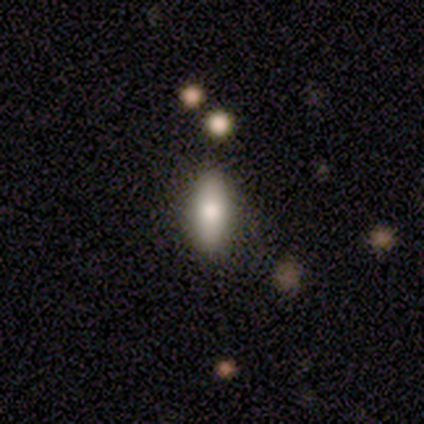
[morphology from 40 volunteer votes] Smooth or featured?
  - smooth: 80% *
  - star or artifact: 15%
  - featured or disk: 5%
How rounded?
  - in between: 75% *
  - cigar-shaped: 25%
  - round: 0%
Merging?
  - none: 62% *
  - minor disturbance: 3%
  - major disturbance: 3%
  - merger: 0%